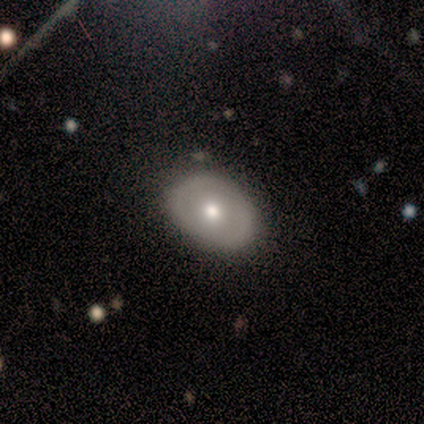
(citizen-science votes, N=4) Smooth or featured: smooth — 75% (featured or disk — 25%)
How rounded: in between — 100%
Merging: none — 75% (major disturbance — 25%)